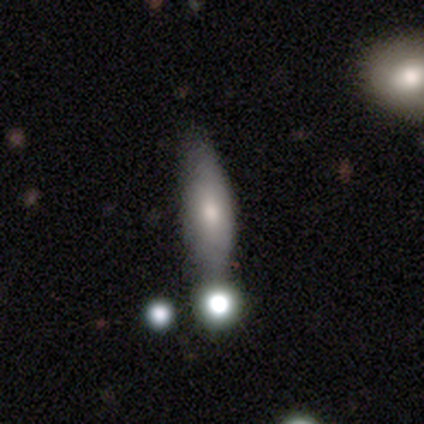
This is likely a featured or disk galaxy (60%). It is likely viewed edge-on (67%). Edge-on bulge: possibly none (50%, tied with rounded). Merging: likely none (60%).